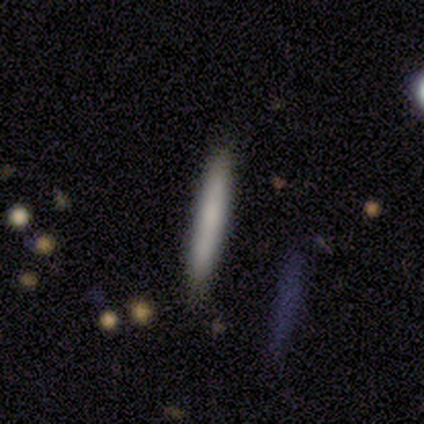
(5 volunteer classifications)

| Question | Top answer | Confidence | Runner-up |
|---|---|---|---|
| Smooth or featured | smooth | 60% | featured or disk (40%) |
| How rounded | cigar-shaped | 100% | — |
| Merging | none | 80% | major disturbance (20%) |